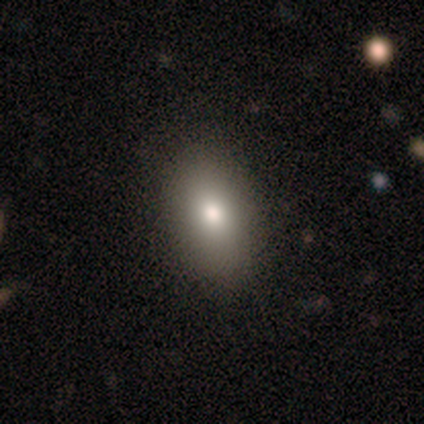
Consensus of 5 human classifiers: A smooth galaxy with no disk features (100%) that is in between round and cigar-shaped (60%).

Vote fractions:
- Smooth or featured? smooth: 100% / featured or disk: 0% / star or artifact: 0%
- How rounded? in between: 60% / round: 20% / cigar-shaped: 20%
- Merging? none: 80% / major disturbance: 20% / minor disturbance: 0% / merger: 0%